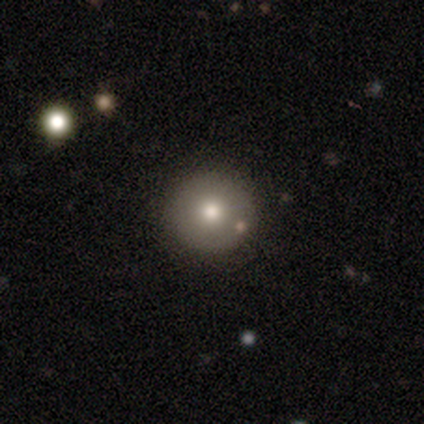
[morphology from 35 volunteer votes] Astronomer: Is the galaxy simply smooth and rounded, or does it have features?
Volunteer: smooth — 71%.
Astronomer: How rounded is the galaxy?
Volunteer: round — 100%.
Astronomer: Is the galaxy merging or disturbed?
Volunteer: none — 93%.